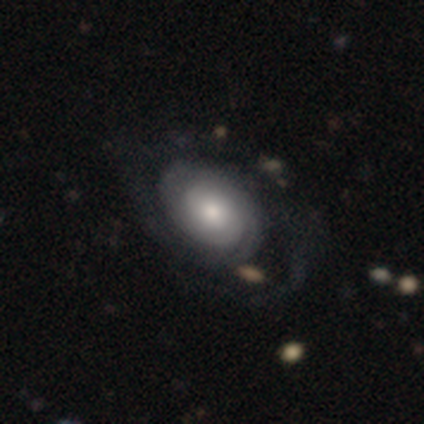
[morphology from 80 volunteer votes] smooth-or-featured: featured or disk: 65% | smooth: 32% | star or artifact: 2%
  disk-edge-on: no: 94% | yes: 6%
    bar: no: 88% | weak: 12% | strong: 0%
    has-spiral-arms: yes: 82% | no: 18%
      spiral-winding: tight: 55% | medium: 22% | loose: 22%
      spiral-arm-count: 2: 48% | can't tell: 38% | 1: 10% | 3: 5% | 4: 0% | more than 4: 0%
    bulge-size: moderate: 63% | large: 16% | small: 16% | dominant: 4% | none: 0%
  merging: none: 23% | major disturbance: 15% | minor disturbance: 10% | merger: 3%